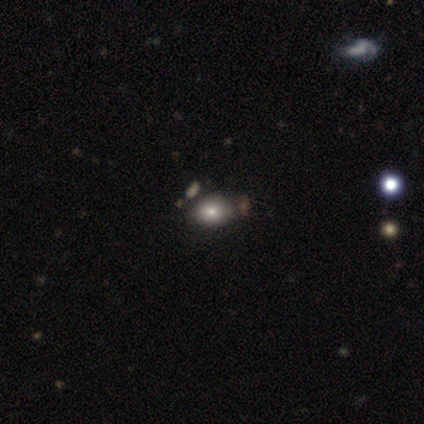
smooth 79%, featured or disk 12%, star or artifact 9%. Down the decision tree: how rounded — in between (75%); merging — none (73%).